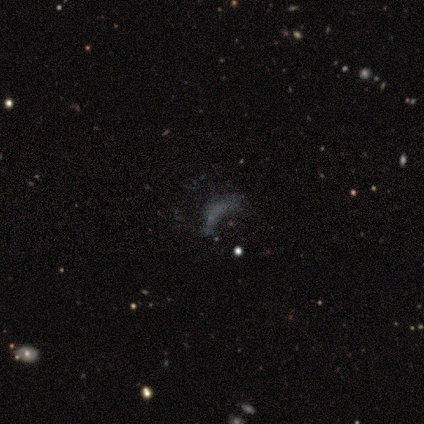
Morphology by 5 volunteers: A featured or disk galaxy (40%, tied with star or artifact) with no bar (100%), no spiral arms (100%) and no central bulge (100%). Merging: major disturbance (67%).